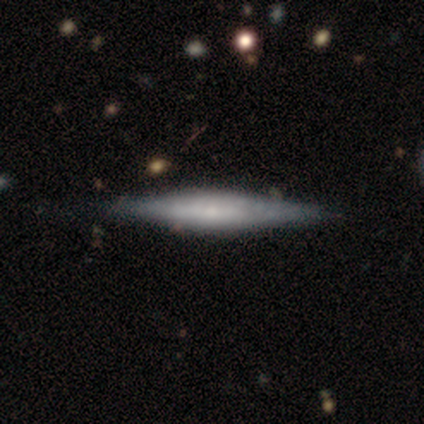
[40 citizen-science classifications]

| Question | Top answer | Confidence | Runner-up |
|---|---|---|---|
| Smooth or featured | featured or disk | 70% | smooth (30%) |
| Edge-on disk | yes | 93% | no (7%) |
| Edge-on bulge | rounded | 46% | boxy (38%) |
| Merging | none | 57% | minor disturbance (10%) |